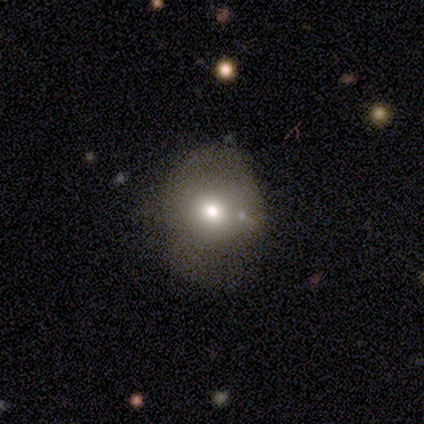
A smooth galaxy with no disk features (55%) that is round (77%). Merging: none (54%).